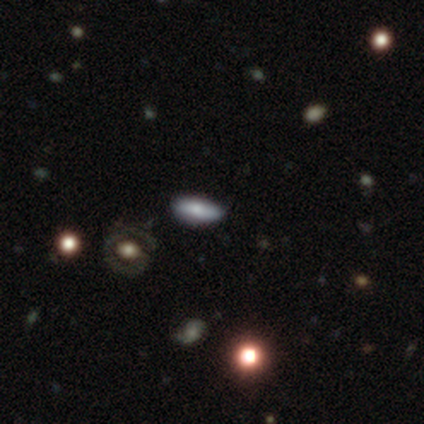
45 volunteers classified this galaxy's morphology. Smooth or featured? 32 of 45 (71%) said smooth. How rounded? 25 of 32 (78%) said in between. Merging? 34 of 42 (81%) said none.